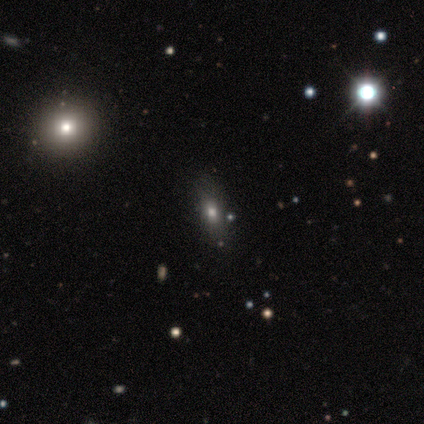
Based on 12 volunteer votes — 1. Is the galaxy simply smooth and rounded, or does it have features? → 33% smooth (tied), 33% featured or disk (tied), 33% star or artifact (tied).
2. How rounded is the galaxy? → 100% in between, 0% round, 0% cigar-shaped.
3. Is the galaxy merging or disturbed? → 88% none, 12% major disturbance, 0% minor disturbance, 0% merger.